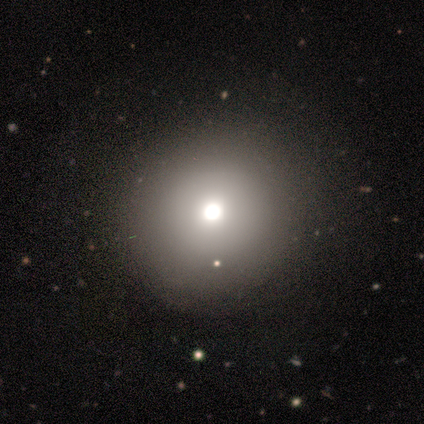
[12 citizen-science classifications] Smooth or featured? smooth (75%)
How rounded? round (100%)
Merging? none (91%)